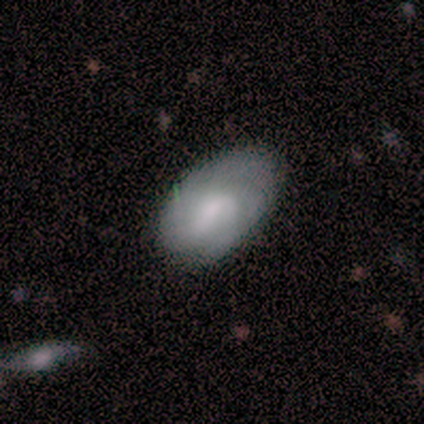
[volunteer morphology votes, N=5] smooth-or-featured: featured or disk: 60% | smooth: 40% | star or artifact: 0%
  disk-edge-on: no: 100% | yes: 0%
    bar: weak: 67% | no: 33% | strong: 0%
    has-spiral-arms: yes: 100% | no: 0%
      spiral-winding: medium: 67% | tight: 33% | loose: 0%
      spiral-arm-count: 3: 67% | can't tell: 33% | 1: 0% | 2: 0% | 4: 0% | more than 4: 0%
    bulge-size: moderate: 67% | small: 33% | dominant: 0% | large: 0% | none: 0%
  merging: none: 80% | minor disturbance: 20% | major disturbance: 0% | merger: 0%